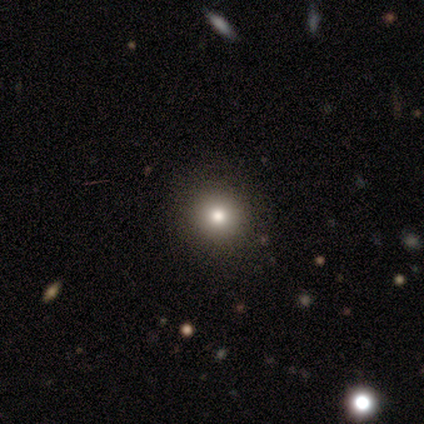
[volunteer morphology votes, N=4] Smooth or featured? smooth (75%)
How rounded? round (100%)
Merging? none (100%)